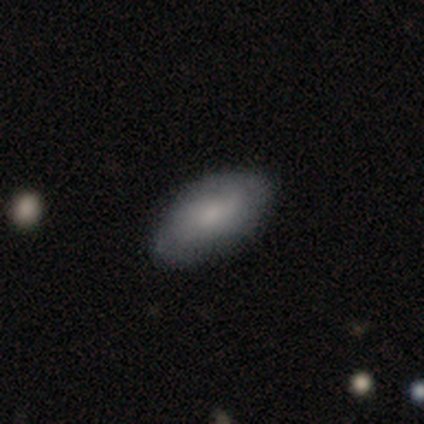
Smooth or featured? 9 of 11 (82%) said smooth. How rounded? 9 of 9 (100%) said in between. Merging? 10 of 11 (91%) said none.